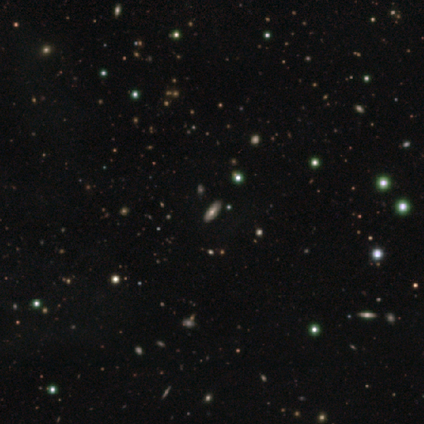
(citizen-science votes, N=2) Morphology: type=smooth (50%, tied with star or artifact); roundness=cigar-shaped (100%); merging=none (100%).